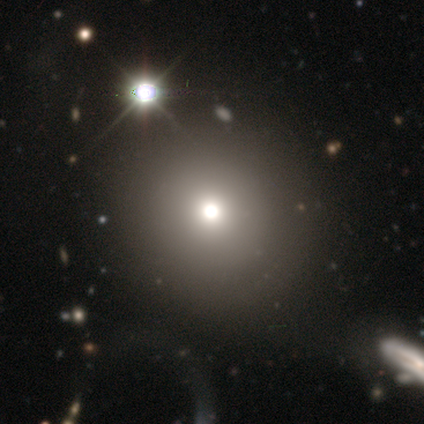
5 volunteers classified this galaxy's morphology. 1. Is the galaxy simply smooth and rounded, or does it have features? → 80% smooth, 20% star or artifact, 0% featured or disk.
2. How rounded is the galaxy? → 100% round, 0% in between, 0% cigar-shaped.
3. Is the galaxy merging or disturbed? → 50% none, 25% minor disturbance, 25% major disturbance, 0% merger.